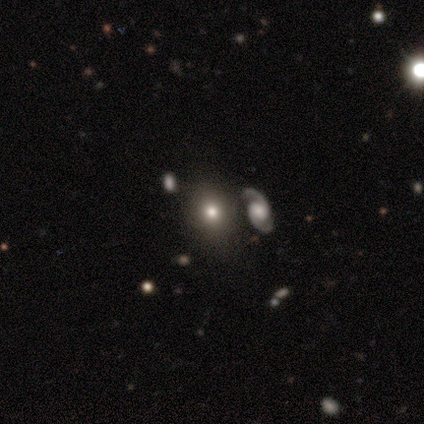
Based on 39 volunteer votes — A smooth galaxy with no disk features (59%) that is round (57%). Merging: none (64%).